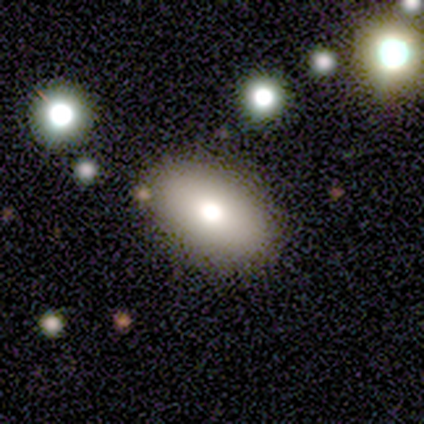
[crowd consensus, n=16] Morphology: type=smooth (94%); roundness=in between (93%); merging=none (81%).